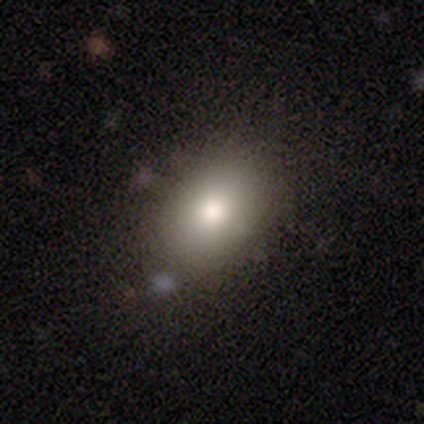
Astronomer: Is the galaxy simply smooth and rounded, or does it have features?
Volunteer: smooth — 76%.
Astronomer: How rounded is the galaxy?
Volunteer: in between — 78%.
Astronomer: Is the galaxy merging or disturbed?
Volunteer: none — 82%.